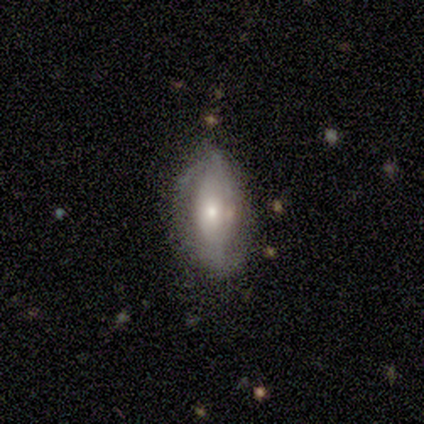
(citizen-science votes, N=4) featured or disk 75%, smooth 25%, star or artifact 0%. Down the decision tree: edge-on disk — no (100%); bar — no (67%); spiral arms — yes (100%); spiral arm count — 1 (33%, tied with 2 and can't tell); spiral winding — loose (67%); bulge size — large (33%, tied with moderate and small); merging — none (75%).